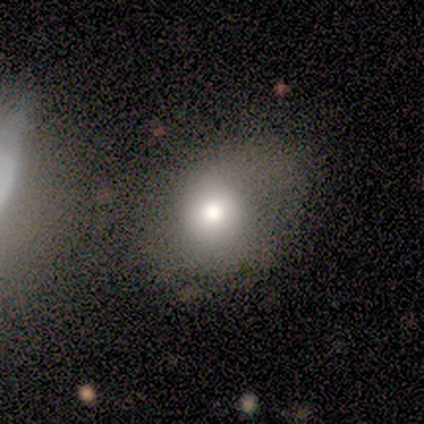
A smooth galaxy with no disk features (80%) that is round (75%).

Vote fractions:
- Smooth or featured? smooth: 80% / featured or disk: 20% / star or artifact: 0%
- How rounded? round: 75% / in between: 25% / cigar-shaped: 0%
- Merging? none: 40% (tied) / minor disturbance: 40% (tied) / major disturbance: 20% / merger: 0%